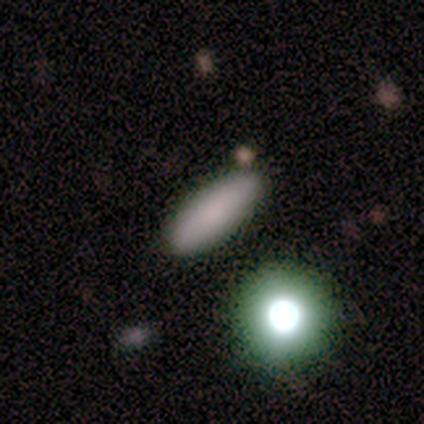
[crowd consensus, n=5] This is clearly a smooth galaxy (100%). How rounded: likely cigar-shaped (60%). Merging: likely none (60%).